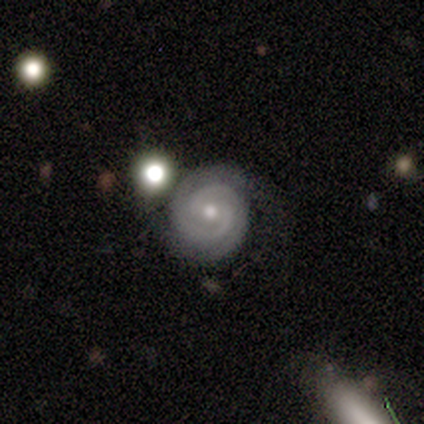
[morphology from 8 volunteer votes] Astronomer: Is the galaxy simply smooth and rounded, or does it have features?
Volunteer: featured or disk — 100%.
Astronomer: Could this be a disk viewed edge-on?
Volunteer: no — 100%.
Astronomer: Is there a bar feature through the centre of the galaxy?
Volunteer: no — 88%.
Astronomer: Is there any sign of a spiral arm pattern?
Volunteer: yes — 88%.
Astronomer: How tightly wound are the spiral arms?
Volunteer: tight — 100%.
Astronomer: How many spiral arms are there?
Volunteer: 2 — 71%.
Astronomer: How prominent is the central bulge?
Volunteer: small — 62%.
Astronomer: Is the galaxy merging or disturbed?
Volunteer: none — 88%.